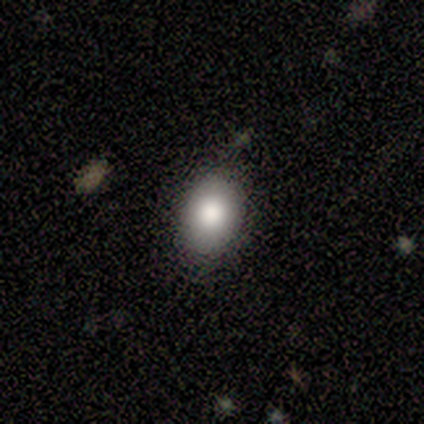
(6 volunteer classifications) Volunteers were most divided on "smooth or featured": smooth: 67%, star or artifact: 33%, featured or disk: 0%. More confident: how rounded — in between (75%); merging — none (75%).